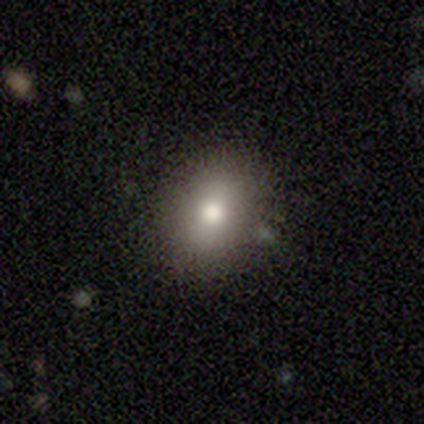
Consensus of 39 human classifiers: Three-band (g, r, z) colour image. It shows a smooth galaxy with no disk features (92%) that is in between round and cigar-shaped (58%). Merging: none (86%).